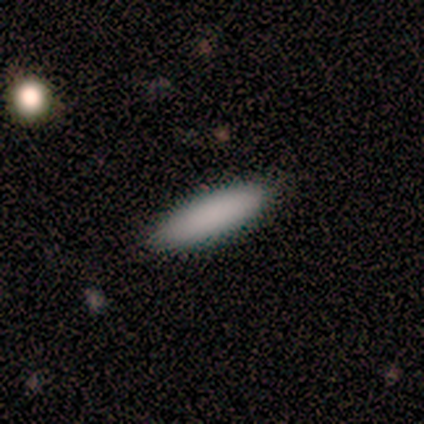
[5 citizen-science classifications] Smooth or featured: smooth — 60% (featured or disk — 40%)
How rounded: in between — 100%
Merging: none — 100%